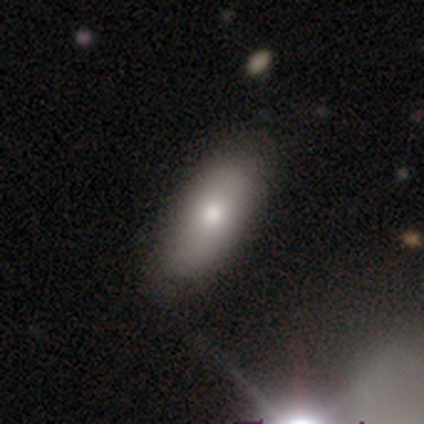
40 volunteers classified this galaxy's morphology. type=smooth (85%); roundness=in between (82%); merging=none (54%).